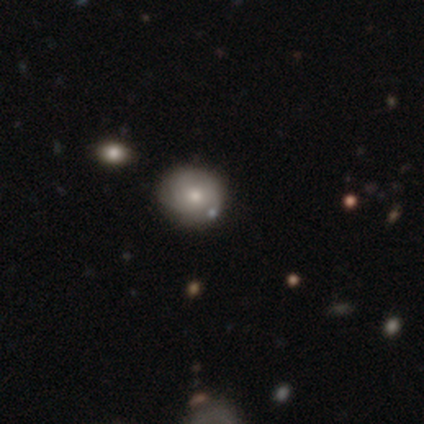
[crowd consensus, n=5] Smooth or featured? 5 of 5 (100%) said smooth. How rounded? 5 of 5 (100%) said round. Merging? 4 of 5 (80%) said none.